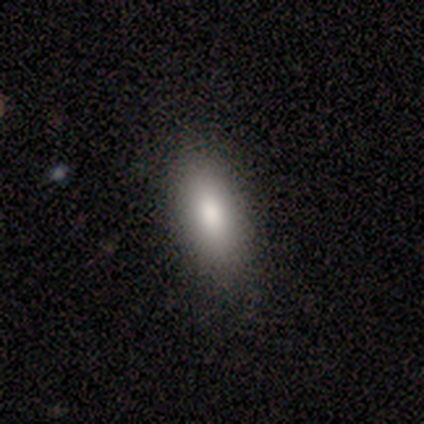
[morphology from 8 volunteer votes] Q: Smooth or featured?
A: smooth (100%)
Q: How rounded?
A: in between (88%); runner-up: cigar-shaped (12%)
Q: Merging?
A: none (100%)